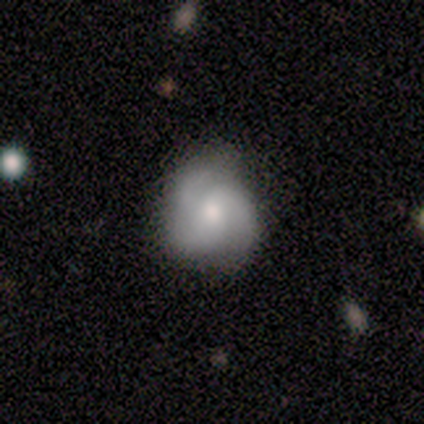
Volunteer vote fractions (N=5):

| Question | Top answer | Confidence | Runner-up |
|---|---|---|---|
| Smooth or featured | featured or disk | 80% | smooth (20%) |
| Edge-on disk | no | 100% | — |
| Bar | no | 50% | strong (25%) |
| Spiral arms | yes | 100% | — |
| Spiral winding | medium | 50% | tied: loose (50%) |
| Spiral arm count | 2 | 50% | tied: 3 (50%) |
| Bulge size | moderate | 75% | small (25%) |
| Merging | none | 80% | minor disturbance (20%) |